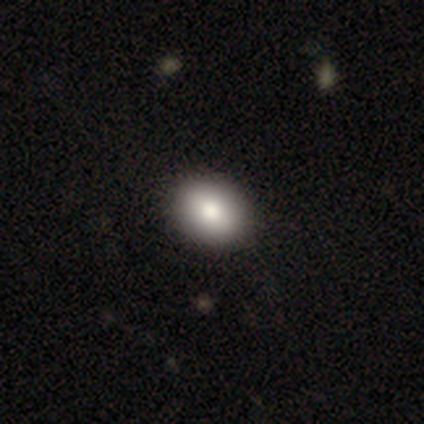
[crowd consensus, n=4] smooth_or_featured: smooth (p=0.75) [alt: featured or disk p=0.25]
how_rounded: round (p=0.67) [alt: in between p=0.33]
merging: none (p=1.00)